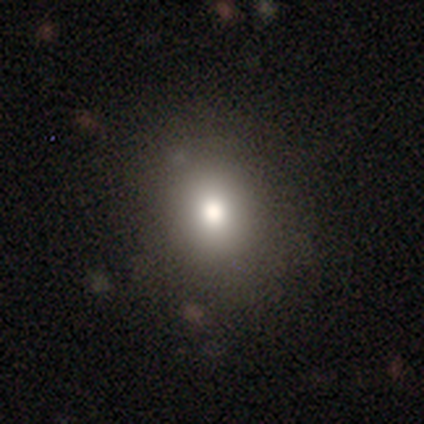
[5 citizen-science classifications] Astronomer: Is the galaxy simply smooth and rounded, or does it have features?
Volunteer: smooth — 60%.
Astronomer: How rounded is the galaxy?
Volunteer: in between — 67%.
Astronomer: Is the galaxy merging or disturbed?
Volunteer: none — 100%.